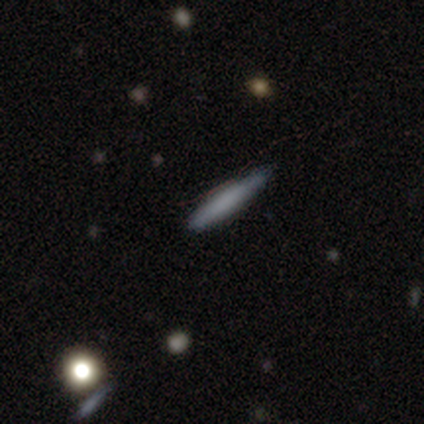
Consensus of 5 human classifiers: Q: Smooth or featured?
A: featured or disk (60%); runner-up: smooth (40%)
Q: Edge-on disk?
A: yes (100%)
Q: Edge-on bulge?
A: boxy (67%); runner-up: none (33%)
Q: Merging?
A: none (100%)